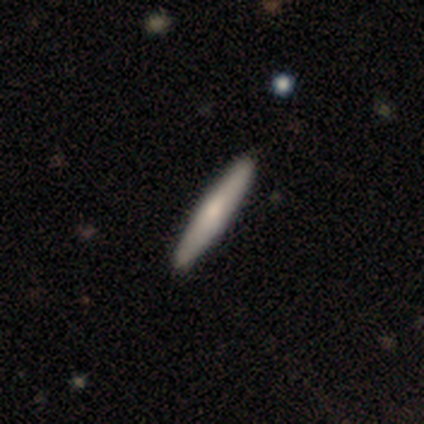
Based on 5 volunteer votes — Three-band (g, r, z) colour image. It shows a smooth galaxy with no disk features (60%) that is cigar-shaped (100%). Merging: none (80%).